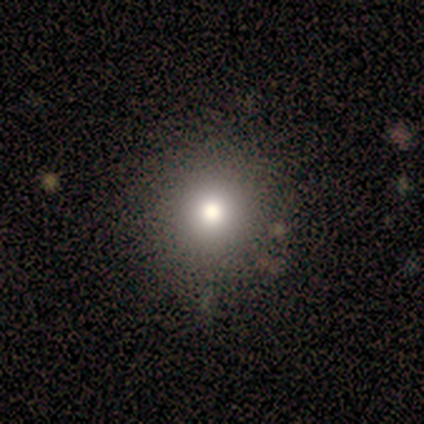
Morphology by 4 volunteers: A smooth galaxy with no disk features (100%) that is round (100%). Merging: none (75%).